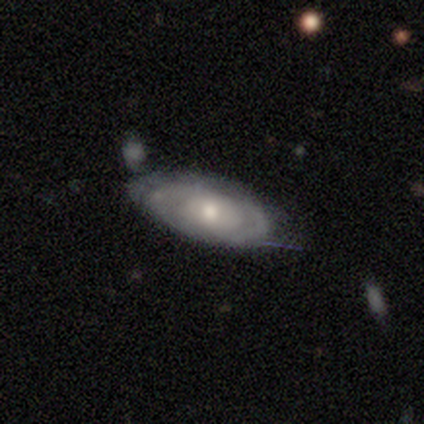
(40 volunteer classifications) This appears to be a featured or disk galaxy (65%) with no bar (87%), tight (87%) spiral arms (65%) and a small central bulge (43%). Merging: minor disturbance (49%).